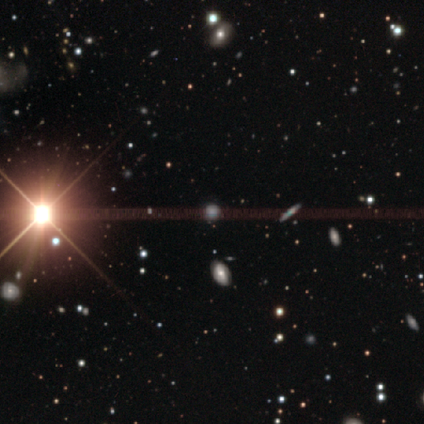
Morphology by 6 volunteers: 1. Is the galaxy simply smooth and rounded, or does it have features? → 50% smooth, 33% star or artifact, 17% featured or disk.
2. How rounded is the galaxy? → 100% round, 0% in between, 0% cigar-shaped.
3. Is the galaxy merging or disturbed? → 75% none, 25% major disturbance, 0% minor disturbance, 0% merger.